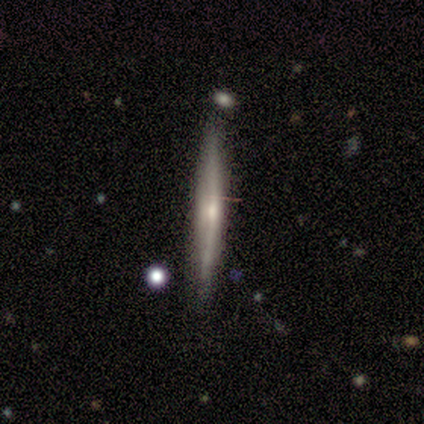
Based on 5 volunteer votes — Smooth or featured? 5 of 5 (100%) said featured or disk. Edge-on disk? 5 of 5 (100%) said yes. Edge-on bulge? 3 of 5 (60%) said none. Merging? 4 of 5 (80%) said none.